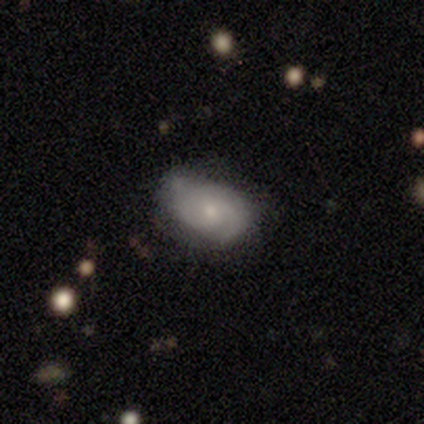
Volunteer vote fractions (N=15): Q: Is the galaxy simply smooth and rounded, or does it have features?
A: featured or disk — 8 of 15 (53%).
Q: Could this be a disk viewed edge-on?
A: no — 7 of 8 (88%).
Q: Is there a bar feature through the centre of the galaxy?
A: no — 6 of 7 (86%).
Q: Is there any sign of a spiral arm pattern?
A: yes — 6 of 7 (86%).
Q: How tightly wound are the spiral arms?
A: tight — 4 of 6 (67%).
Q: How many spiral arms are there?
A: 1 — 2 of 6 (33%, tied with 2 and can't tell).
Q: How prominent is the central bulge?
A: small — 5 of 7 (71%).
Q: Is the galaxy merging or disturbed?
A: none — 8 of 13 (62%).